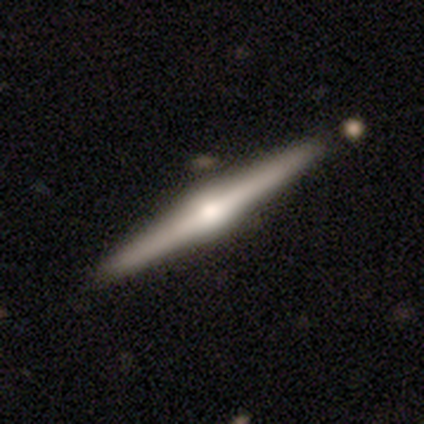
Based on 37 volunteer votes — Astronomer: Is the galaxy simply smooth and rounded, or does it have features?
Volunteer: featured or disk — 86%.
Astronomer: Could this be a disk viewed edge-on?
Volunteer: yes — 97%.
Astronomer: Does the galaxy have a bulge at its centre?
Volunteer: rounded — 97%.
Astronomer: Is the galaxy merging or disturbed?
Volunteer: none — 65%.